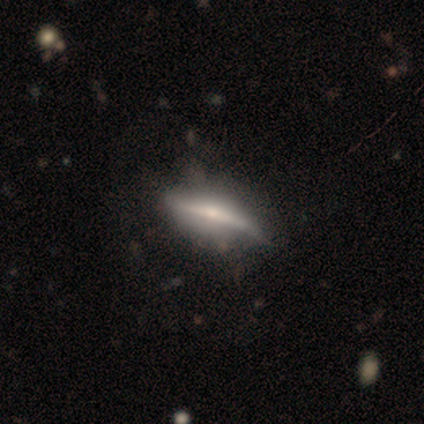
Smooth or featured?
  - smooth: 60% *
  - featured or disk: 40%
  - star or artifact: 0%
How rounded?
  - in between: 100% *
  - round: 0%
  - cigar-shaped: 0%
Merging?
  - none: 60% *
  - minor disturbance: 20%
  - major disturbance: 20%
  - merger: 0%